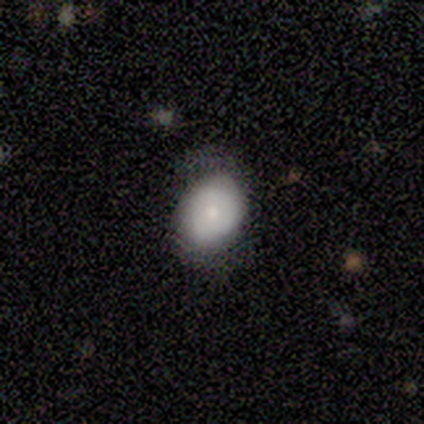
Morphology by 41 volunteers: smooth 63%, featured or disk 29%, star or artifact 7%. Down the decision tree: how rounded — in between (73%); merging — none (53%).